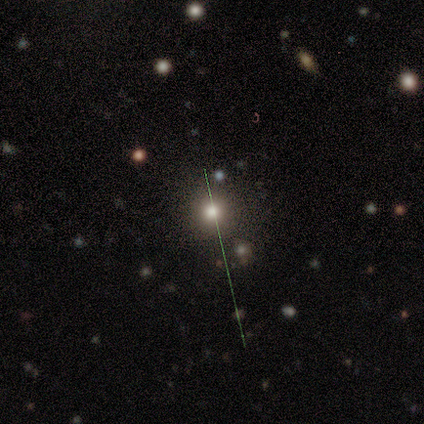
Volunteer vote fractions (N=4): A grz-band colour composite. It shows a smooth galaxy with no disk features (50%, tied with star or artifact) that is round (100%). Merging: none (100%).